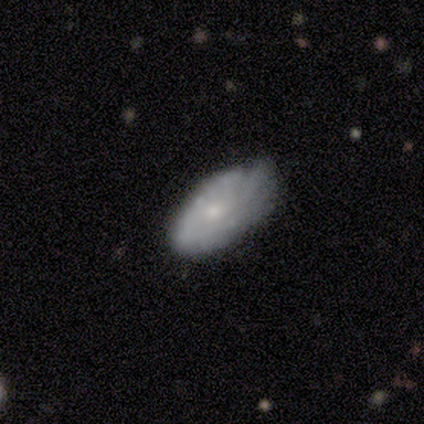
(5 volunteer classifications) Morphology: type=featured or disk (40%, tied with star or artifact); edge-on=no (100%); bar=weak (50%, tied with no); spiral arms=yes (50%, tied with no); winding=loose (100%); arm count=more than 4 (100%); bulge=moderate (50%, tied with small); merging=none (67%).